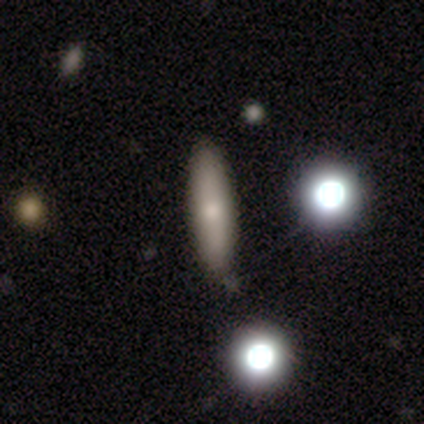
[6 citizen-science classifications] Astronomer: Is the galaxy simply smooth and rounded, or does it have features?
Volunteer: smooth — 83%.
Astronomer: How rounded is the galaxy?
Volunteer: cigar-shaped — 100%.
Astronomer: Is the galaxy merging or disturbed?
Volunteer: none — 100%.